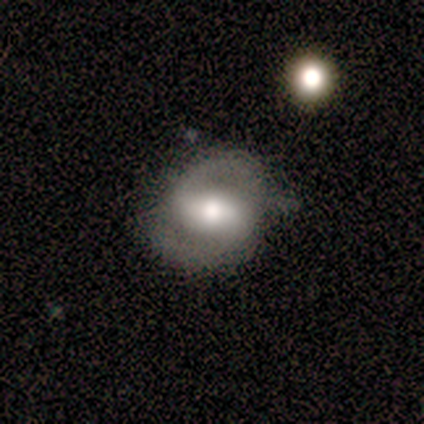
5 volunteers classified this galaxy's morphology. Smooth or featured? 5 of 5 (100%) said featured or disk. Edge-on disk? 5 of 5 (100%) said no. Bar? 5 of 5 (100%) said weak. Spiral arms? 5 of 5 (100%) said yes. Spiral winding? 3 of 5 (60%) said medium. Spiral arm count? 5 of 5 (100%) said 2. Bulge size? 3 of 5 (60%) said moderate. Merging? 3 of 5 (60%) said none.